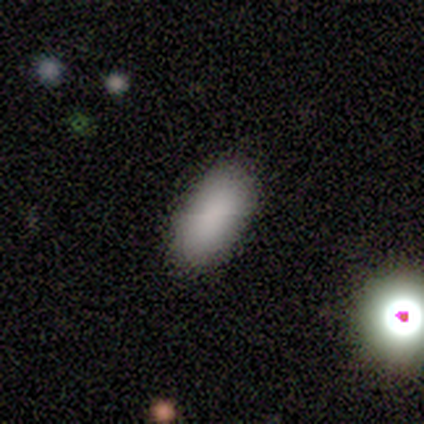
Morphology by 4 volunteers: type=smooth (100%); roundness=in between (100%); merging=none (100%).